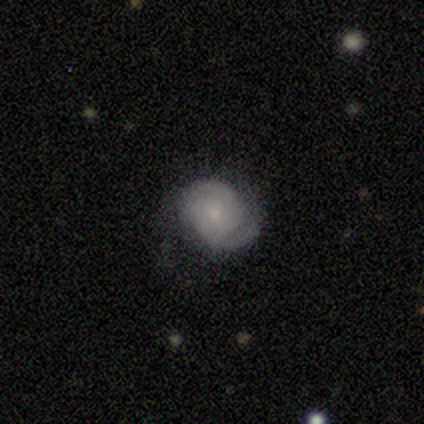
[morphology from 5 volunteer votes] A featured or disk galaxy (80%) with no bar (100%), 2 (50%) medium (75%) spiral arms (100%) and a small central bulge (75%).

Vote fractions:
- Smooth or featured? featured or disk: 80% / smooth: 20% / star or artifact: 0%
- Edge-on disk? no: 100% / yes: 0%
- Bar? no: 100% / strong: 0% / weak: 0%
- Spiral arms? yes: 100% / no: 0%
- Spiral winding? medium: 75% / tight: 25% / loose: 0%
- Spiral arm count? 2: 50% / 3: 25% / 4: 25% / 1: 0% / more than 4: 0% / can't tell: 0%
- Bulge size? small: 75% / moderate: 25% / dominant: 0% / large: 0% / none: 0%
- Merging? minor disturbance: 60% / none: 40% / major disturbance: 0% / merger: 0%